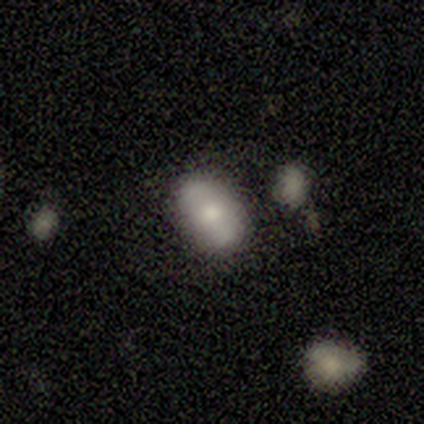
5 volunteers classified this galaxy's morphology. A smooth galaxy with no disk features (80%) that is round (50%, tied with in between). Merging: none (40%, tied with merger).